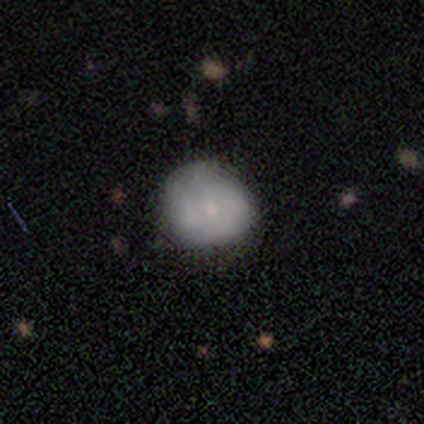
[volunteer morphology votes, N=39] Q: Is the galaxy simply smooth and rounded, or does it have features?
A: smooth — 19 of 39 (49%, tied with featured or disk).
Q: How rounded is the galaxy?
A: round — 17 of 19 (89%).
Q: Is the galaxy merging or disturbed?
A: none — 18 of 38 (47%).